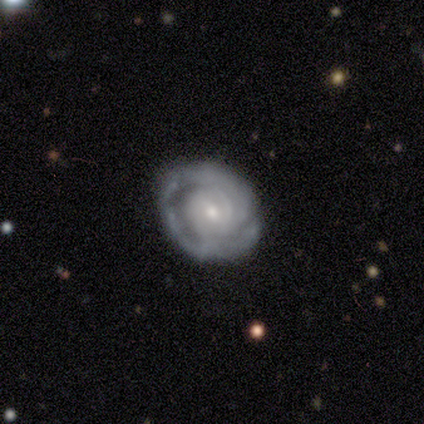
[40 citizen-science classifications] featured or disk 72%, smooth 20%, star or artifact 8%. Down the decision tree: edge-on disk — no (100%); bar — no (59%); spiral arms — yes (76%); spiral arm count — can't tell (36%); spiral winding — tight (59%); bulge size — small (59%); merging — none (84%).